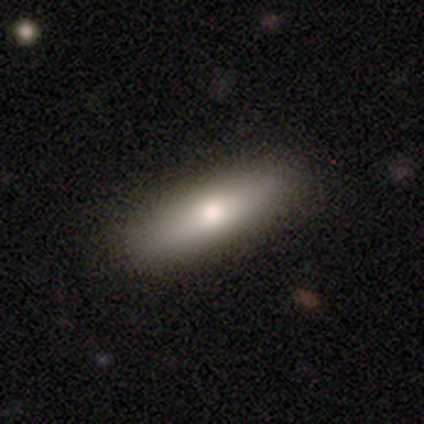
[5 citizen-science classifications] Smooth or featured? 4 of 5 (80%) said smooth. How rounded? 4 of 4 (100%) said cigar-shaped. Merging? 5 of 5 (100%) said none.